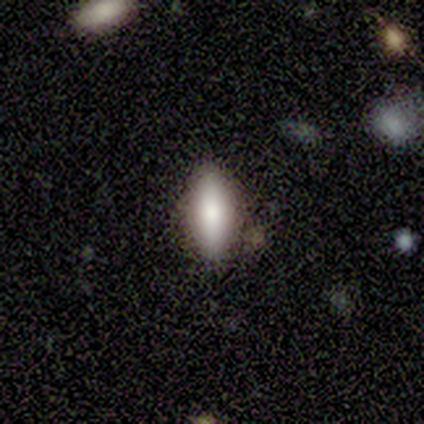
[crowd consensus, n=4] Overall: smooth (100%). How rounded: in between (50%, tied with cigar-shaped). Merging: none (100%).